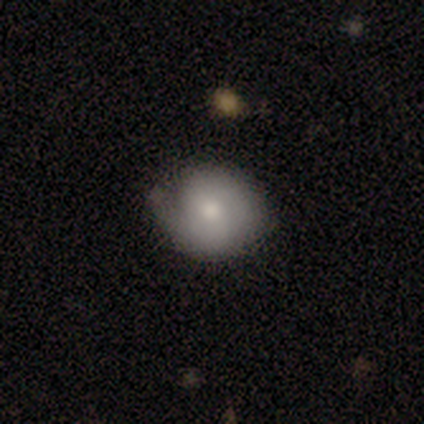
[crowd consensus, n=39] Smooth or featured? 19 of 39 (49%) said featured or disk. Edge-on disk? 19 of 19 (100%) said no. Bar? 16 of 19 (84%) said no. Spiral arms? 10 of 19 (53%) said yes. Spiral winding? 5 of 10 (50%) said tight. Spiral arm count? 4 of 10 (40%, tied with can't tell) said 2. Bulge size? 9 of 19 (47%) said moderate. Merging? 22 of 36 (61%) said none.